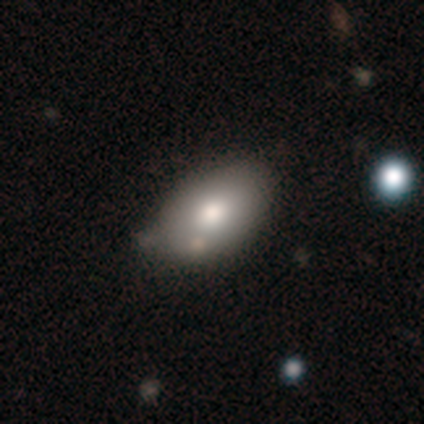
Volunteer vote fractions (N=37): smooth-or-featured: smooth: 86% | featured or disk: 14% | star or artifact: 0%
  how-rounded: in between: 91% | round: 9% | cigar-shaped: 0%
  merging: none: 57% | minor disturbance: 35% | merger: 8% | major disturbance: 0%